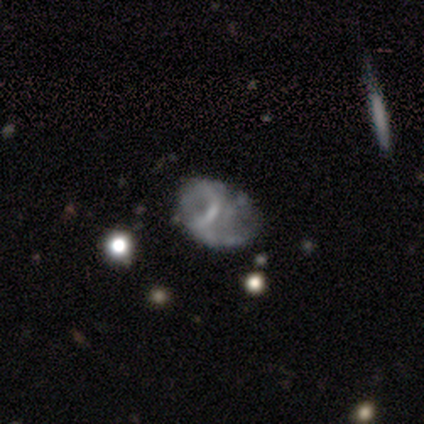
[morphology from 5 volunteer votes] Smooth or featured? featured or disk (60%)
Edge-on disk? no (100%)
Bar? weak (67%)
Spiral arms? yes (67%)
Spiral winding? medium (50%, tied with loose)
Spiral arm count? 2 (50%, tied with can't tell)
Bulge size? none (67%)
Merging? none (80%)